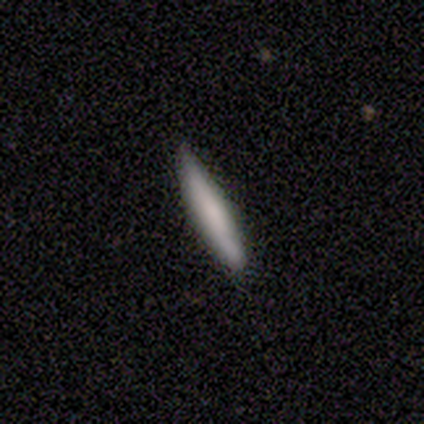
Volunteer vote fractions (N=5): A smooth galaxy with no disk features (60%) that is cigar-shaped (67%). Merging: none (40%, tied with minor disturbance).